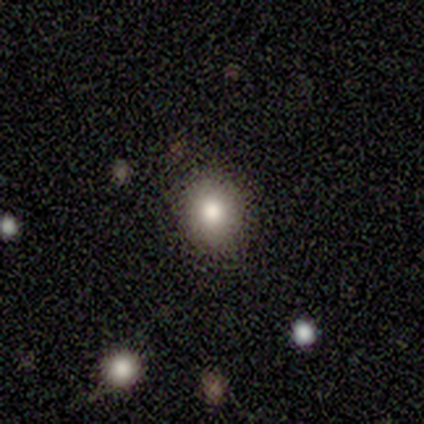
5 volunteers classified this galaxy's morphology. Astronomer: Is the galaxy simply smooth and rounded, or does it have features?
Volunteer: smooth — 80%.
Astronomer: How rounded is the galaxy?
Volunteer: round — 75%.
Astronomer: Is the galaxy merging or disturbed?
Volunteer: none — 100%.